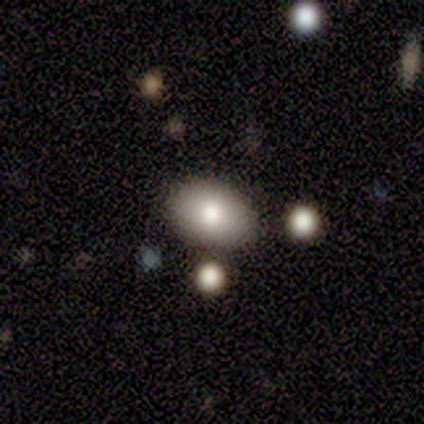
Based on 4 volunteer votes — smooth-or-featured: smooth: 100% | featured or disk: 0% | star or artifact: 0%
  how-rounded: in between: 100% | round: 0% | cigar-shaped: 0%
  merging: none: 75% | major disturbance: 25% | minor disturbance: 0% | merger: 0%